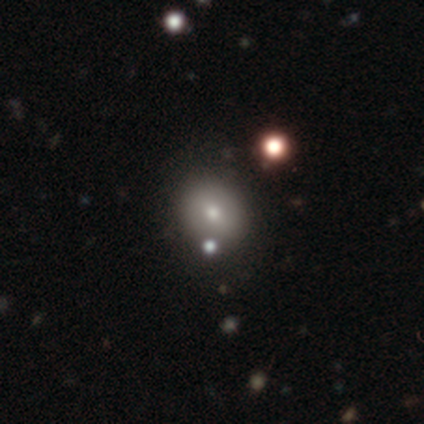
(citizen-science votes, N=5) Volunteers were most divided on "smooth or featured": smooth: 60%, featured or disk: 40%, star or artifact: 0%. More confident: how rounded — round (100%); merging — none (100%).